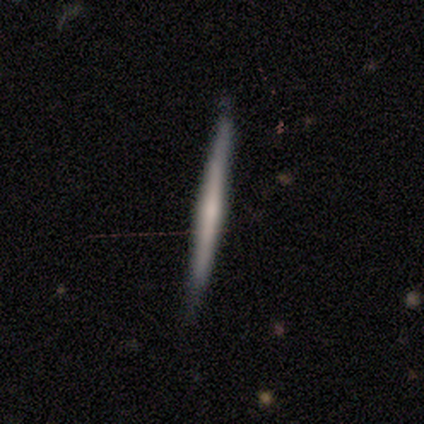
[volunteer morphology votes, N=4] type=smooth (50%, tied with featured or disk); roundness=cigar-shaped (100%); merging=none (100%).